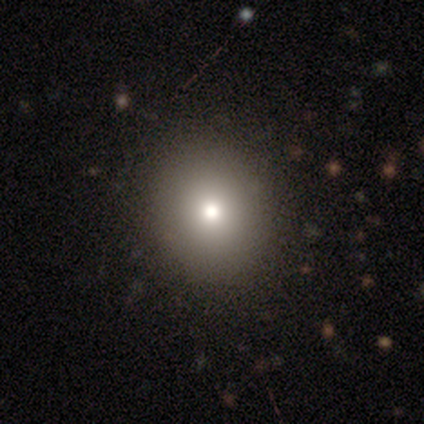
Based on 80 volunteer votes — This appears to be a smooth galaxy with no disk features (84%) that is round (81%). Merging: none (43%).